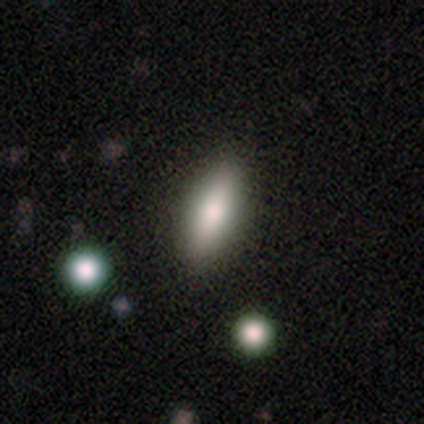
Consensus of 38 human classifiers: This is likely a smooth galaxy (71%). How rounded: possibly in between (59%). Merging: possibly none (57%).